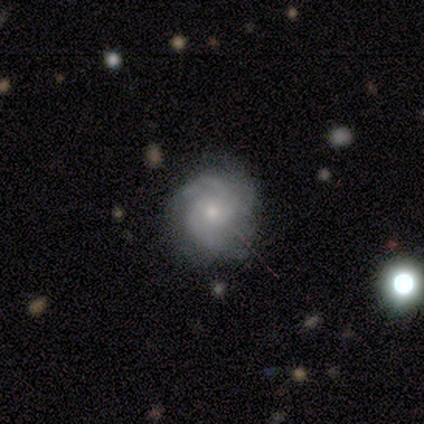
This is clearly a featured or disk galaxy (100%). It is clearly not viewed edge-on (100%). Bar: likely no (62%). Spiral arm pattern: likely yes (75%). Spiral arm count: possibly can't tell (50%). Spiral winding: possibly tight (50%). Central bulge: likely small (62%). Merging: likely none (75%).